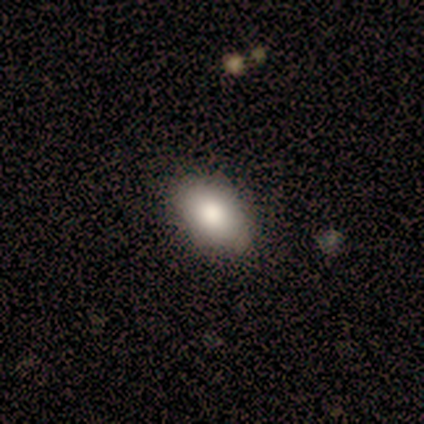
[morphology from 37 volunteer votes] A smooth galaxy with no disk features (84%) that is in between round and cigar-shaped (94%).

Vote fractions:
- Smooth or featured? smooth: 84% / featured or disk: 14% / star or artifact: 3%
- How rounded? in between: 94% / round: 3% / cigar-shaped: 3%
- Merging? none: 83% / minor disturbance: 11% / major disturbance: 3% / merger: 3%